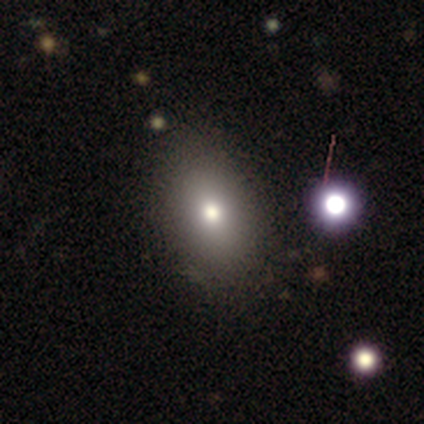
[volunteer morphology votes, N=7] Smooth or featured?
  - smooth: 71% *
  - featured or disk: 29%
  - star or artifact: 0%
How rounded?
  - in between: 100% *
  - round: 0%
  - cigar-shaped: 0%
Merging?
  - none: 100% *
  - minor disturbance: 0%
  - major disturbance: 0%
  - merger: 0%